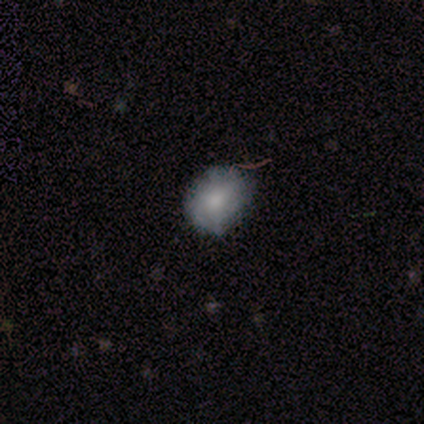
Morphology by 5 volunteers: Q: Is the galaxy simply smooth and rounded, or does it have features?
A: smooth — 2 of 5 (40%, tied with star or artifact).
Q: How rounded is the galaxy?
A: in between — 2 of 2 (100%).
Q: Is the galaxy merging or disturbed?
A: none — 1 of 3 (33%, tied with minor disturbance and major disturbance).